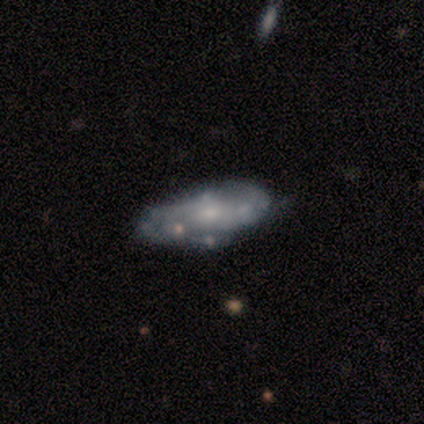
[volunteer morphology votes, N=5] smooth_or_featured: featured or disk (p=0.60) [alt: smooth p=0.40]
disk_edge_on: no (p=1.00)
bar: no (p=1.00)
has_spiral_arms: yes (p=0.67) [alt: no p=0.33]
spiral_winding: tight (p=0.50) [tied with: medium p=0.50]
spiral_arm_count: 3 (p=0.50) [tied with: can't tell p=0.50]
bulge_size: small (p=1.00)
merging: none (p=0.80) [alt: merger p=0.20]